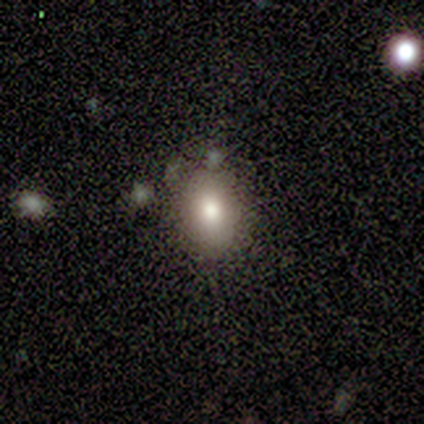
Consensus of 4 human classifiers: Smooth or featured? 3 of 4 (75%) said smooth. How rounded? 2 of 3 (67%) said in between. Merging? 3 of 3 (100%) said none.